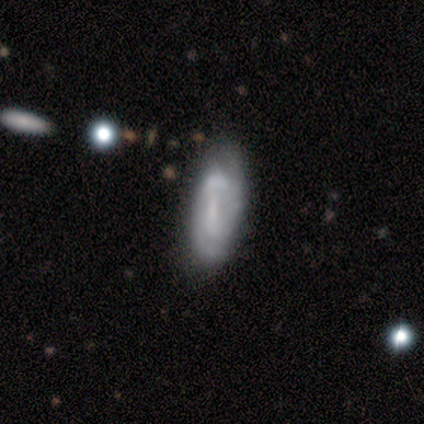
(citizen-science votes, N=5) A smooth galaxy with no disk features (40%, tied with featured or disk) that is in between round and cigar-shaped (100%).

Vote fractions:
- Smooth or featured? smooth: 40% (tied) / featured or disk: 40% (tied) / star or artifact: 20%
- How rounded? in between: 100% / round: 0% / cigar-shaped: 0%
- Merging? none: 50% / minor disturbance: 25% / merger: 25% / major disturbance: 0%